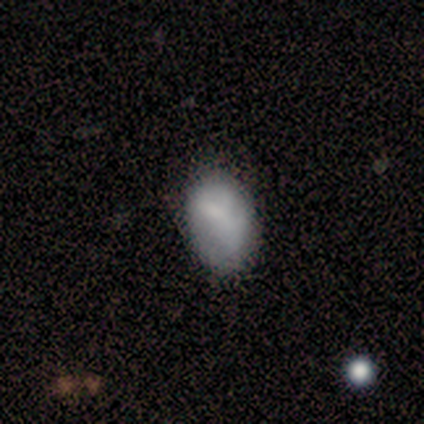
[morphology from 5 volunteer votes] Smooth or featured: smooth — 80% (featured or disk — 20%)
How rounded: in between — 75% (round — 25%)
Merging: none — 40% (tied with major disturbance — 40%)